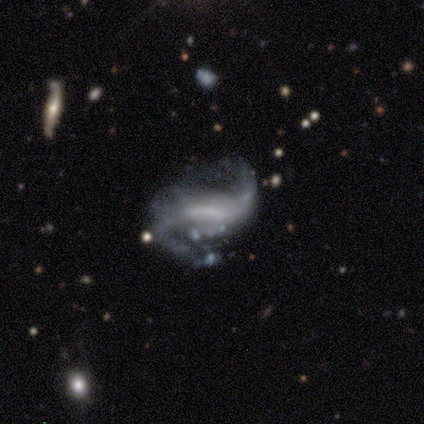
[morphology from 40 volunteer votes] This appears to be a featured or disk galaxy (90%) with a weak bar (51%), 2 (82%) loose (73%) spiral arms (94%) and no central bulge (60%). Merging: none (46%).